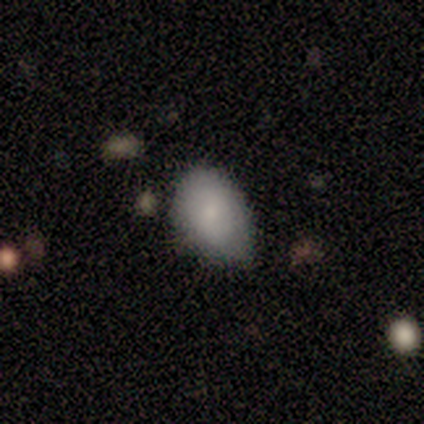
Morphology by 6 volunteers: Volunteers were most divided on "smooth or featured": smooth: 67%, featured or disk: 33%, star or artifact: 0%. More confident: how rounded — in between (75%); merging — none (67%).